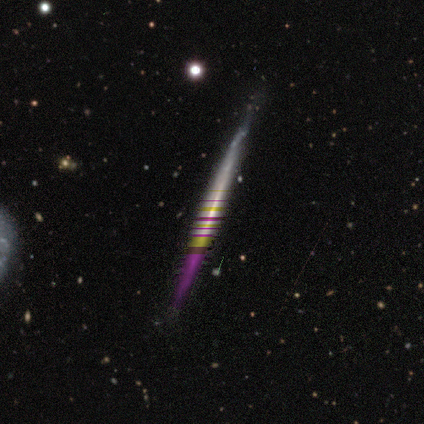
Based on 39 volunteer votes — smooth_or_featured: featured or disk (p=0.49) [alt: star or artifact p=0.41]
disk_edge_on: yes (p=0.95) [alt: no p=0.05]
edge_on_bulge: none (p=0.72) [alt: rounded p=0.22]
merging: none (p=0.78) [alt: minor disturbance p=0.17]